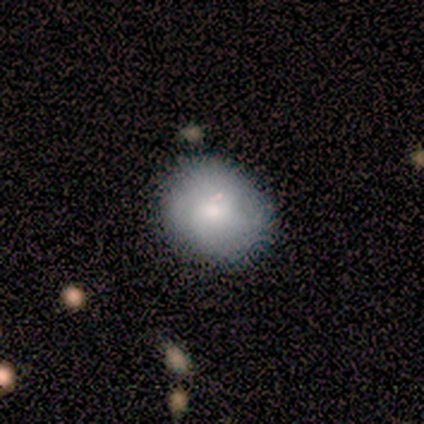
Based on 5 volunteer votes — smooth 60%, featured or disk 20%, star or artifact 20%. Down the decision tree: how rounded — round (100%); merging — none (100%).